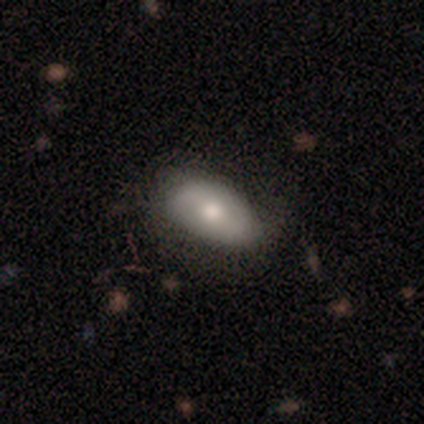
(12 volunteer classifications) This appears to be a smooth galaxy with no disk features (75%) that is in between round and cigar-shaped (100%). Merging: none (73%).